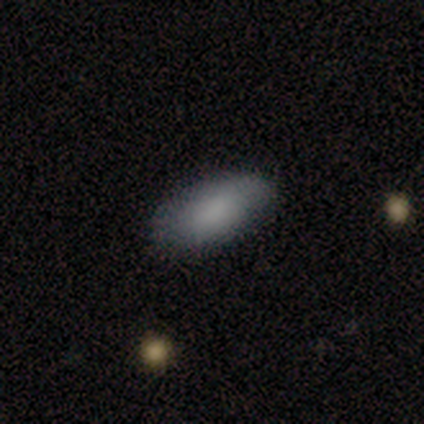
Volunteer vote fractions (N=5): smooth 80%, featured or disk 20%, star or artifact 0%. Down the decision tree: how rounded — in between (100%); merging — none (80%).